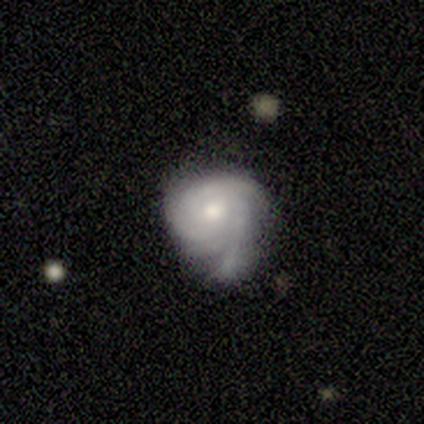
Volunteers were most divided on "spiral arm count": can't tell: 41%, 3: 22%, 2: 19%, 4: 11%, 1: 7%, more than 4: 0%. More confident: edge-on disk — no (100%); spiral arms — yes (96%); bar — no (86%); smooth or featured — featured or disk (70%); spiral winding — tight (67%); bulge size — moderate (64%); merging — none (53%).